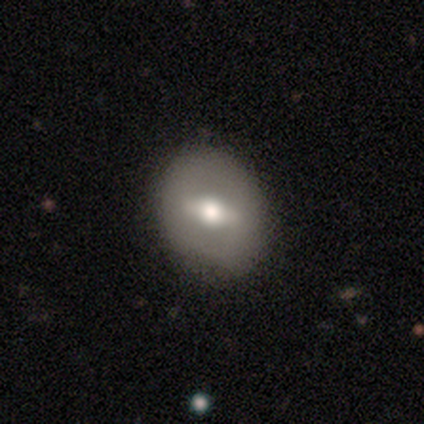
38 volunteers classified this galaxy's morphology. Smooth or featured? featured or disk (63%)
Edge-on disk? no (88%)
Bar? strong (48%)
Spiral arms? no (90%)
Bulge size? moderate (86%)
Merging? none (89%)